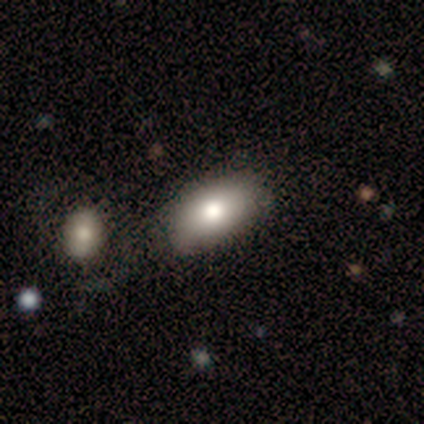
Morphology: type=smooth (60%); roundness=in between (100%); merging=none (75%).